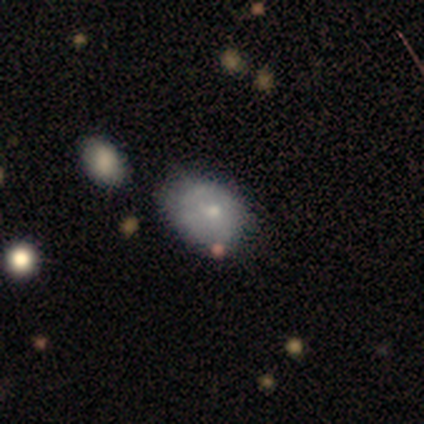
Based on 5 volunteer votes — Overall: featured or disk (60%; smooth 40%). Edge-on disk: no (100%). Bar: no (100%). Spiral arms: no (100%). Bulge size: small (100%). Merging: none (80%).